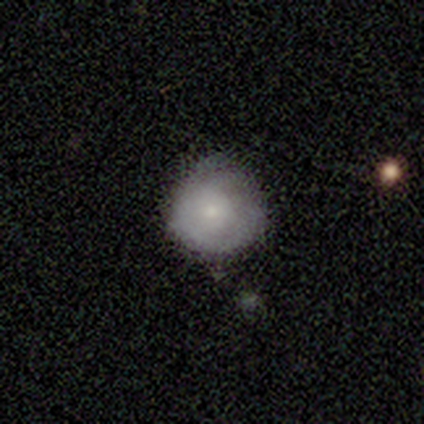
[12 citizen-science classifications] Morphology: type=featured or disk (58%); edge-on=no (100%); bar=no (100%); spiral arms=no (57%); bulge=small (71%); merging=none (50%, tied with minor disturbance).